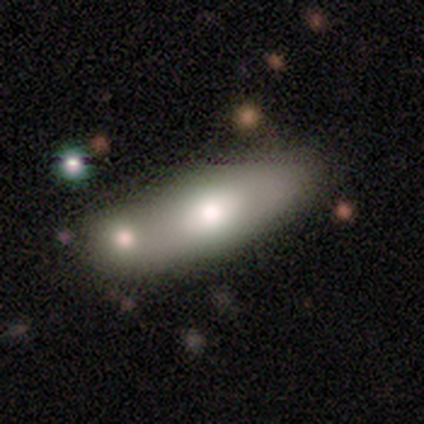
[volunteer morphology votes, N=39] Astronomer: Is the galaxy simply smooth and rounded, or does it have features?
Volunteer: smooth — 69%.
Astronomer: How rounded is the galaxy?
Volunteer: in between — 81%.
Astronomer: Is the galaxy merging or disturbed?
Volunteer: none — 43%, tied with merger at 43%.